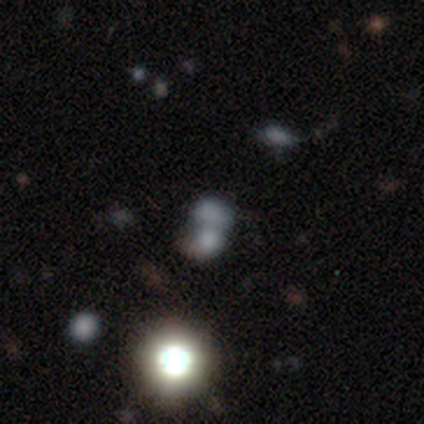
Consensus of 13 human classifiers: A smooth galaxy with no disk features (77%) that is round (60%). Merging: merger (70%).